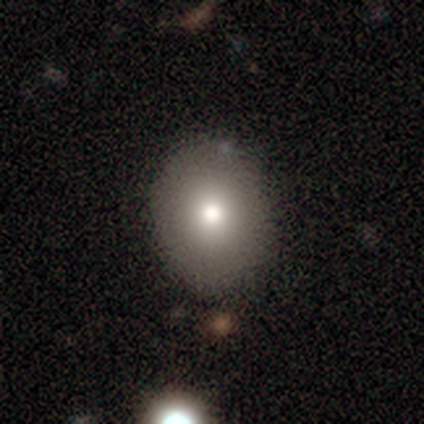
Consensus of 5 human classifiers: Smooth or featured: smooth — 100%
How rounded: round — 60% (in between — 40%)
Merging: none — 80% (minor disturbance — 20%)